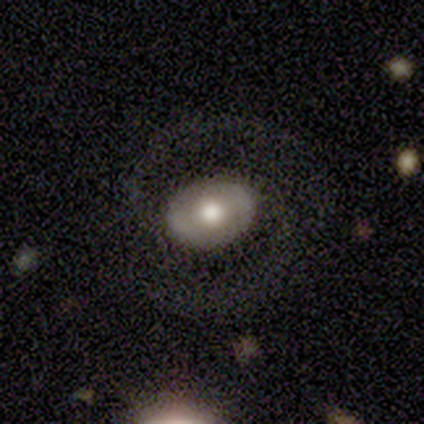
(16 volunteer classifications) Overall: featured or disk (81%). Edge-on disk: no (92%). Bar: no (83%). Spiral arms: yes (67%; no 33%). Spiral arm count: 2 (88%). Spiral winding: medium (50%; loose 38%). Bulge size: large (42%, tied with moderate). Merging: none (81%).